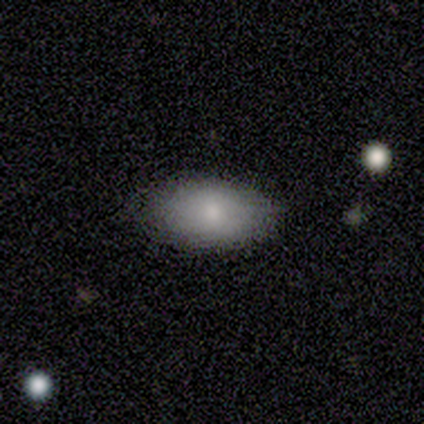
This appears to be a smooth galaxy with no disk features (100%) that is in between round and cigar-shaped (100%). Merging: none (75%).